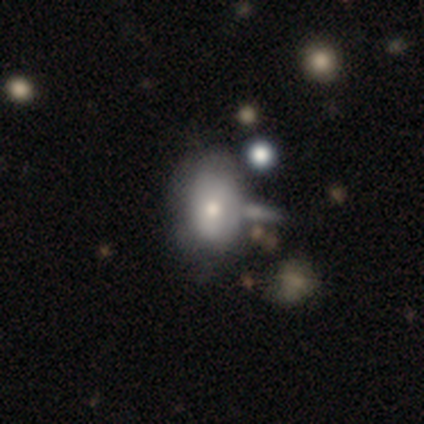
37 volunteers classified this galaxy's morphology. smooth-or-featured: smooth: 65% | featured or disk: 30% | star or artifact: 5%
  how-rounded: in between: 88% | round: 12% | cigar-shaped: 0%
  merging: none: 57% | merger: 20% | minor disturbance: 14% | major disturbance: 9%